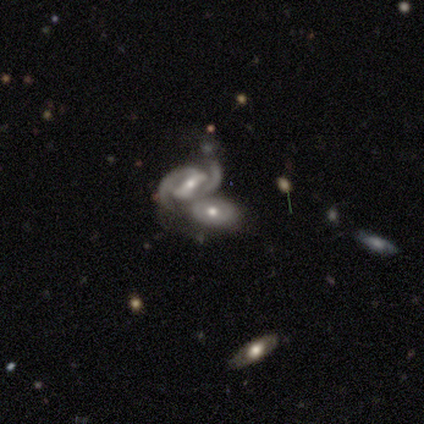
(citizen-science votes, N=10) featured or disk 70%, smooth 30%, star or artifact 0%. Down the decision tree: edge-on disk — no (100%); bar — no (57%); spiral arms — yes (71%); spiral arm count — 2 (80%); spiral winding — medium (60%); bulge size — moderate (71%); merging — merger (70%).